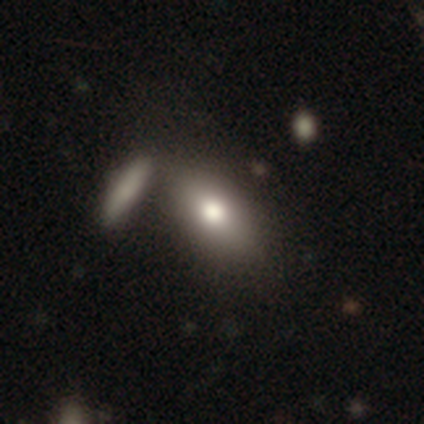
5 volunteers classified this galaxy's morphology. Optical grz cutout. It shows a smooth galaxy with no disk features (80%) that is in between round and cigar-shaped (100%). Merging: none (40%, tied with merger).